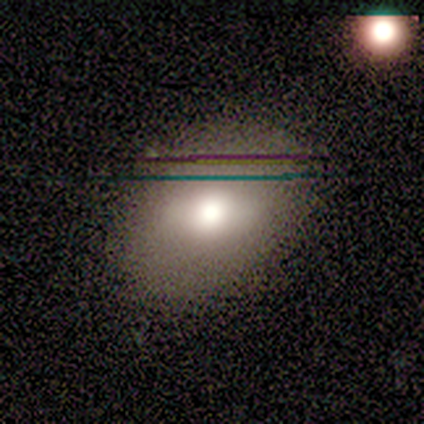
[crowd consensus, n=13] A featured or disk galaxy (62%) with a weak bar (50%), no spiral arms (100%) and a large central bulge (50%).

Vote fractions:
- Smooth or featured? featured or disk: 62% / smooth: 38% / star or artifact: 0%
- Edge-on disk? no: 75% / yes: 25%
- Bar? weak: 50% / no: 33% / strong: 17%
- Spiral arms? no: 100% / yes: 0%
- Bulge size? large: 50% / moderate: 33% / small: 17% / dominant: 0% / none: 0%
- Merging? none: 69% / minor disturbance: 15% / major disturbance: 15% / merger: 0%